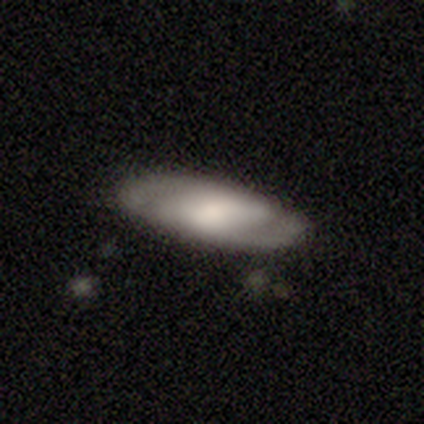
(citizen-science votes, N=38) smooth-or-featured: featured or disk: 66% | smooth: 29% | star or artifact: 5%
  disk-edge-on: no: 88% | yes: 12%
    bar: weak: 50% | no: 32% | strong: 18%
    has-spiral-arms: yes: 77% | no: 23%
      spiral-winding: tight: 41% | medium: 35% | loose: 24%
      spiral-arm-count: 2: 82% | 1: 6% | 3: 6% | more than 4: 6% | 4: 0% | can't tell: 0%
    bulge-size: moderate: 45% | large: 18% | small: 18% | dominant: 9% | none: 9%
  merging: none: 78% | minor disturbance: 19% | major disturbance: 3% | merger: 0%